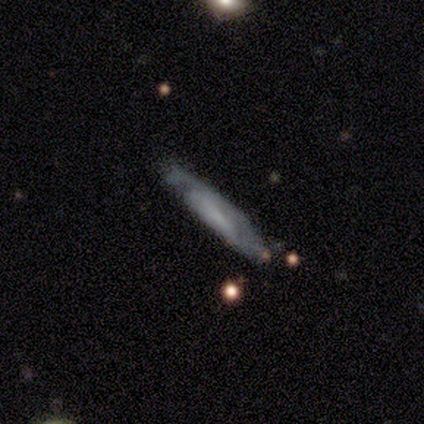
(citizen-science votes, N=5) Overall: featured or disk (60%; smooth 40%). Edge-on disk: no (67%; yes 33%). Bar: no (100%). Spiral arms: yes (50%, tied with no). Spiral arm count: can't tell (100%). Spiral winding: tight (100%). Bulge size: none (100%). Merging: none (60%; minor disturbance 40%).